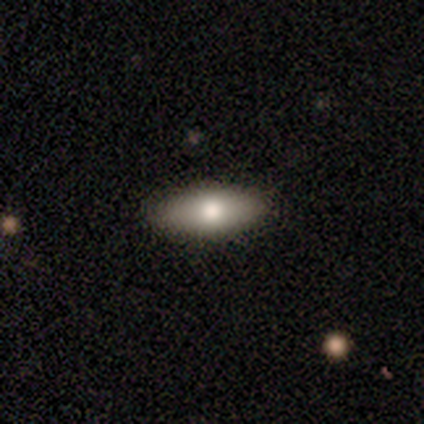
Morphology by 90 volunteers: smooth 83%, featured or disk 12%, star or artifact 4%. Down the decision tree: how rounded — in between (73%); merging — none (88%).